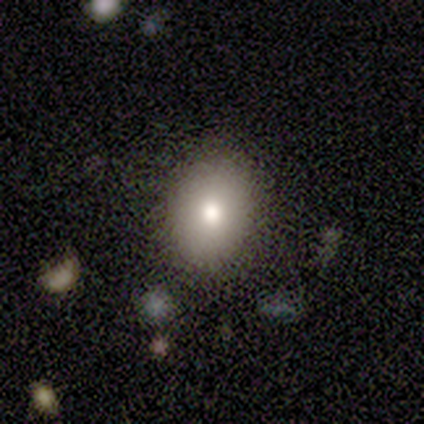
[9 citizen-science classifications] Volunteers were most divided on "how rounded": in between: 88%, round: 12%, cigar-shaped: 0%. More confident: smooth or featured — smooth (89%); merging — none (89%).